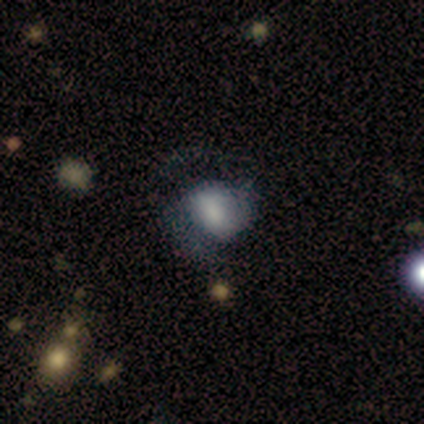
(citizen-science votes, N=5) smooth_or_featured: featured or disk (p=0.80) [alt: smooth p=0.20]
disk_edge_on: no (p=0.75) [alt: yes p=0.25]
bar: weak (p=1.00)
has_spiral_arms: yes (p=1.00)
spiral_winding: tight (p=0.33) [tied with: medium p=0.33, loose p=0.33]
spiral_arm_count: 2 (p=1.00)
bulge_size: large (p=0.67) [alt: dominant p=0.33]
merging: minor disturbance (p=0.40) [tied with: major disturbance p=0.40]